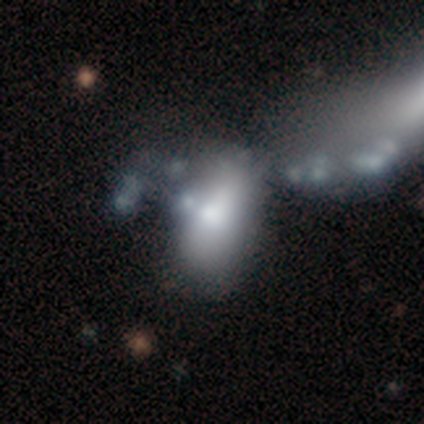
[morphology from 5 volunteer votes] smooth_or_featured: smooth (p=0.40) [tied with: featured or disk p=0.40]
how_rounded: in between (p=1.00)
merging: merger (p=0.50) [alt: none p=0.25]